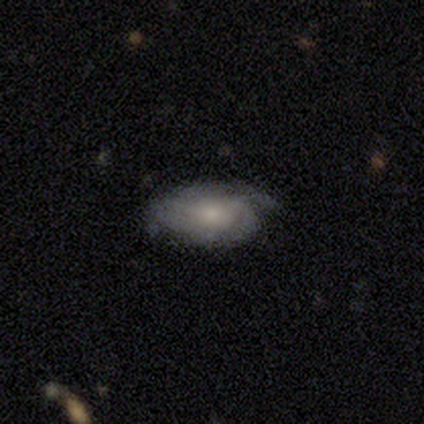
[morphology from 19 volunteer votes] Volunteers were most divided on "bulge size" (2-way tie): moderate: 40%, small: 40%, none: 20%, dominant: 0%, large: 0%. Remaining: edge-on disk — no (100%); spiral arms — yes (90%); bar — no (80%); merging — none (58%); spiral winding — tight (56%); smooth or featured — featured or disk (53%); spiral arm count — can't tell (44%).